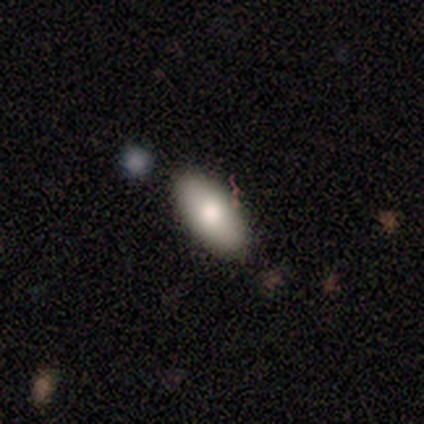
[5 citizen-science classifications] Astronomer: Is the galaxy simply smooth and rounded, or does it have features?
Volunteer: featured or disk — 60%.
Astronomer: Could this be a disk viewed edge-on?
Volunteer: yes — 67%.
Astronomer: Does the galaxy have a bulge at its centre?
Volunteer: rounded — 100%.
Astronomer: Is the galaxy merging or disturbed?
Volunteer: none — 75%.